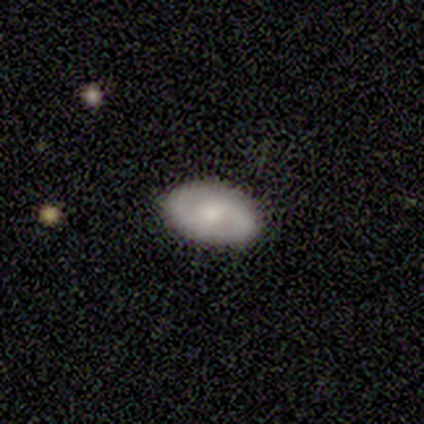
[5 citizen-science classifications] Smooth or featured? smooth (100%)
How rounded? in between (100%)
Merging? none (100%)